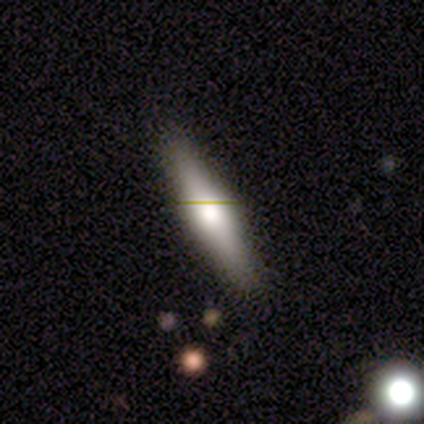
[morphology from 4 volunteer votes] Smooth or featured: featured or disk — 50% (smooth — 25%)
Edge-on disk: yes — 100%
Edge-on bulge: rounded — 100%
Merging: none — 100%